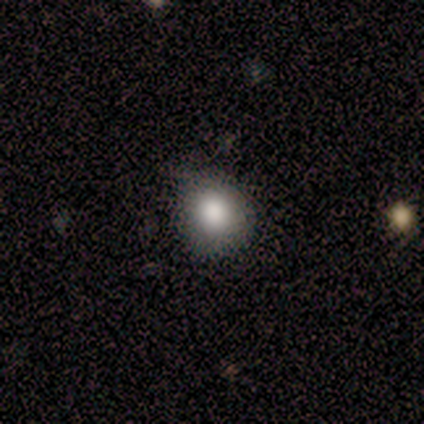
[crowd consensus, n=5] This appears to be a smooth galaxy with no disk features (100%) that is round (80%). Merging: none (100%).